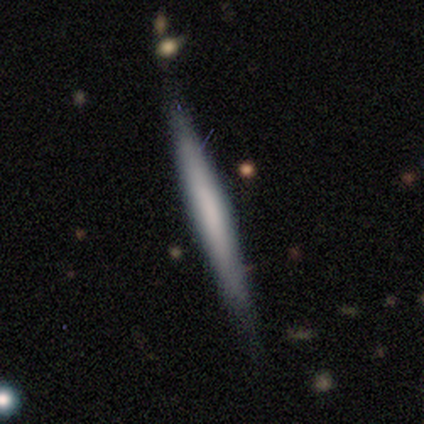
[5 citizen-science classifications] Volunteers were most divided on "edge-on bulge" (3-way tie): boxy: 33%, none: 33%, rounded: 33%. More confident: edge-on disk — yes (100%); merging — none (80%); smooth or featured — featured or disk (60%).